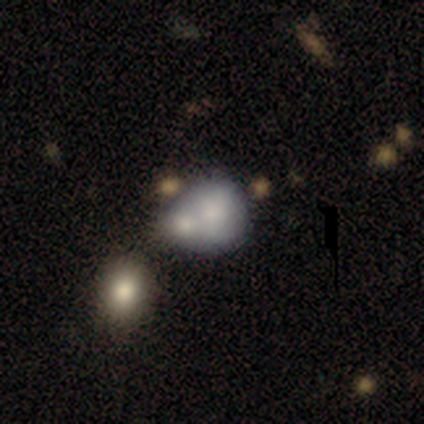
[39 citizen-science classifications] smooth 77%, featured or disk 21%, star or artifact 3%. Down the decision tree: how rounded — round (67%); merging — merger (74%).